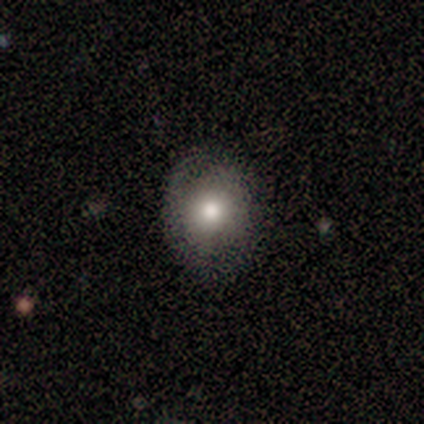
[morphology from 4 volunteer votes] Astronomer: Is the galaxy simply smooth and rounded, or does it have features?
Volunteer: smooth — 75%.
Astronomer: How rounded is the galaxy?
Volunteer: round — 67%.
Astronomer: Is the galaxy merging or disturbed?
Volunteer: none — 100%.